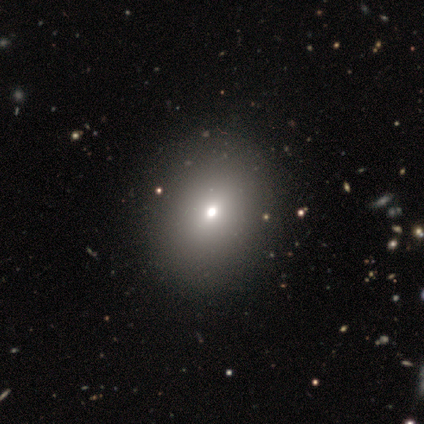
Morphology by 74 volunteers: Smooth or featured? smooth (70%)
How rounded? in between (58%)
Merging? none (42%)